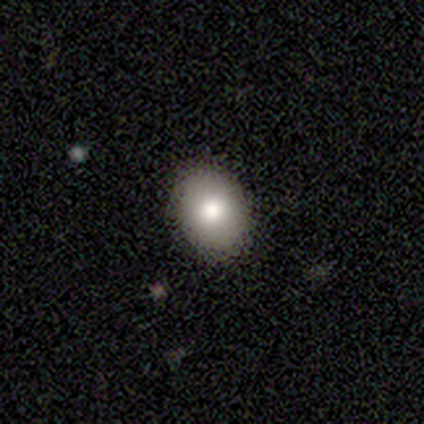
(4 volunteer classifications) Smooth or featured? smooth (100%)
How rounded? round (75%)
Merging? none (100%)